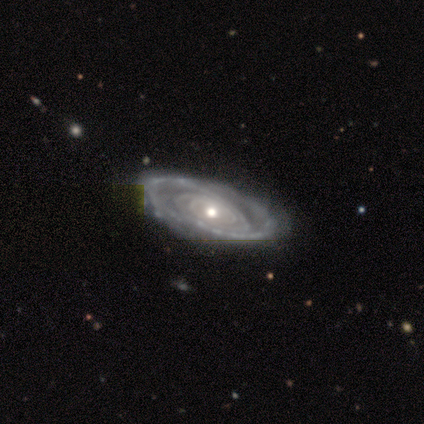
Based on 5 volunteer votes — Smooth or featured? featured or disk (40%, tied with star or artifact)
Edge-on disk? no (100%)
Bar? strong (50%, tied with no)
Spiral arms? yes (100%)
Spiral winding? tight (100%)
Spiral arm count? can't tell (100%)
Bulge size? moderate (50%, tied with small)
Merging? none (67%)